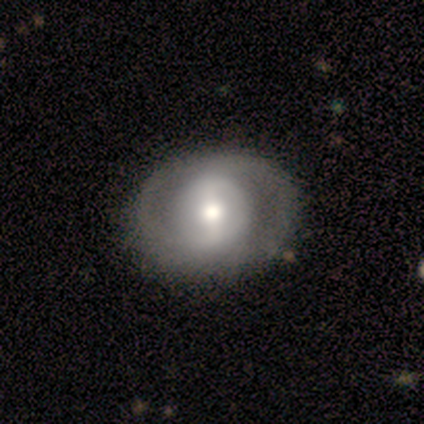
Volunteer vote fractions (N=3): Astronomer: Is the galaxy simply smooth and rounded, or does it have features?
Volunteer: featured or disk — 67%.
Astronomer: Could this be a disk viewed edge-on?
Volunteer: no — 100%.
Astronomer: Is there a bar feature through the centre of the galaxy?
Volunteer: weak — 50%, tied with no at 50%.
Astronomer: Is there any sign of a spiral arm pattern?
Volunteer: yes — 50%, tied with no at 50%.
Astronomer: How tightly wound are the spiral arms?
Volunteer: tight — 100%.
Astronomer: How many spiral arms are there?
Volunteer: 2 — 100%.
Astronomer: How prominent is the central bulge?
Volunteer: moderate — 100%.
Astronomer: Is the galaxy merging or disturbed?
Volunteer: none — 100%.